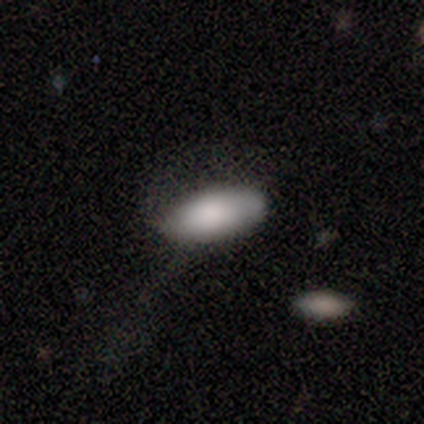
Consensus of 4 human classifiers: Volunteers were most divided on "merging" (2-way tie): none: 50%, minor disturbance: 50%, major disturbance: 0%, merger: 0%. More confident: smooth or featured — smooth (100%); how rounded — in between (75%).